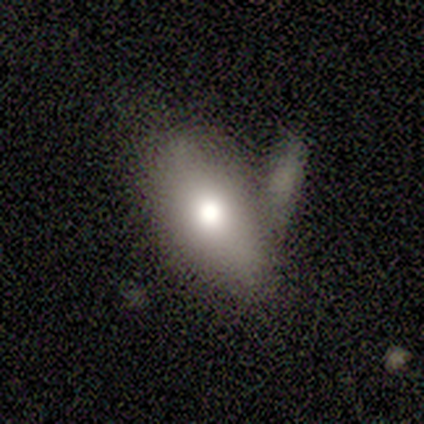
Morphology: type=smooth (75%); roundness=in between (67%); merging=none (50%, tied with minor disturbance).